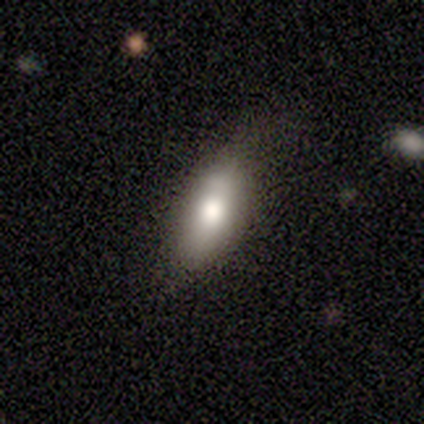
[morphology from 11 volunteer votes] A smooth galaxy with no disk features (91%) that is in between round and cigar-shaped (100%). Merging: none (64%).